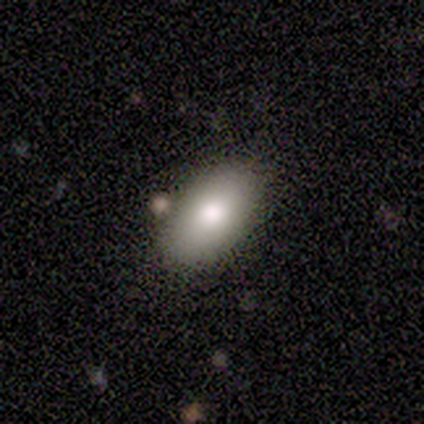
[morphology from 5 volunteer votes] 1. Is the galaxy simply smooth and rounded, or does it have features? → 60% smooth, 20% featured or disk, 20% star or artifact.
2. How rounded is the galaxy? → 100% in between, 0% round, 0% cigar-shaped.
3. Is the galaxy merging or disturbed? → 75% none, 25% minor disturbance, 0% major disturbance, 0% merger.